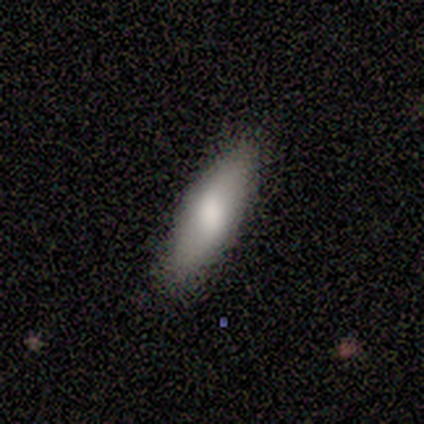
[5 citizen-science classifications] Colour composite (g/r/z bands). It shows a smooth galaxy with no disk features (100%) that is cigar-shaped (80%). Merging: none (60%).